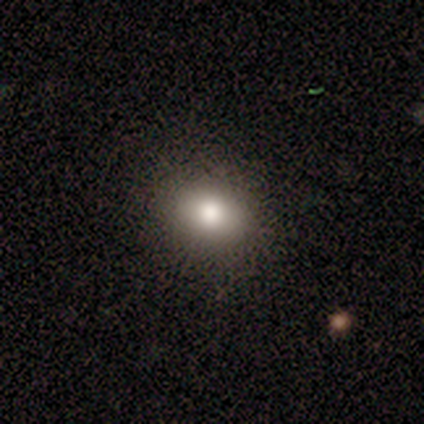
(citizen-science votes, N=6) Morphology: type=smooth (100%); roundness=round (67%); merging=none (83%).